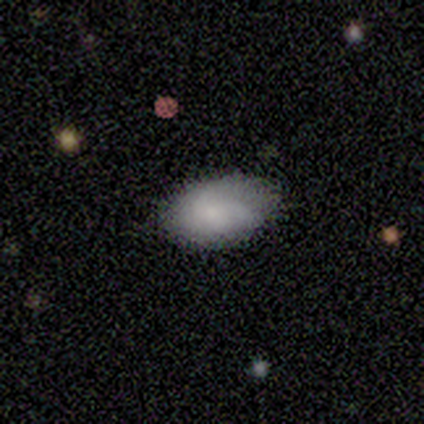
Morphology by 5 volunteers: Volunteers were most divided on "smooth or featured": smooth: 80%, featured or disk: 20%, star or artifact: 0%. More confident: how rounded — in between (100%); merging — none (80%).